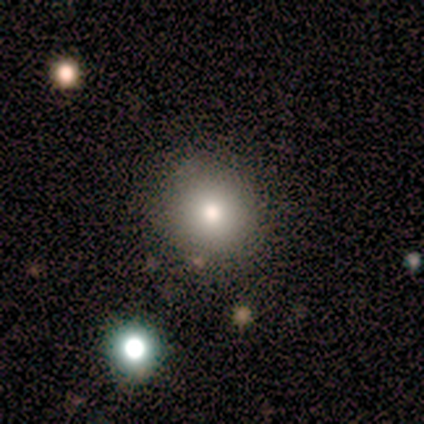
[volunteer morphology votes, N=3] Smooth or featured: smooth — 33% (tied with featured or disk — 33%; star or artifact — 33%)
How rounded: round — 100%
Merging: none — 50% (tied with major disturbance — 50%)